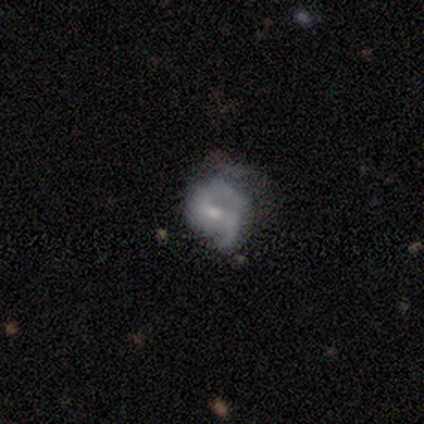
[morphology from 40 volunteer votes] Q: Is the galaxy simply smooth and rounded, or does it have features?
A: featured or disk — 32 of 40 (80%).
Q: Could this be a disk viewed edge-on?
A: no — 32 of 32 (100%).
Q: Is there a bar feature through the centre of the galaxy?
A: weak — 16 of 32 (50%).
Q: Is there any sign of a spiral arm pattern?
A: yes — 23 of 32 (72%).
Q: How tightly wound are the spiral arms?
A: loose — 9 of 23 (39%).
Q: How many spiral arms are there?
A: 2 — 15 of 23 (65%).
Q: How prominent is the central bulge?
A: small — 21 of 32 (66%).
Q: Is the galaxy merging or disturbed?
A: minor disturbance — 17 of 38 (45%).